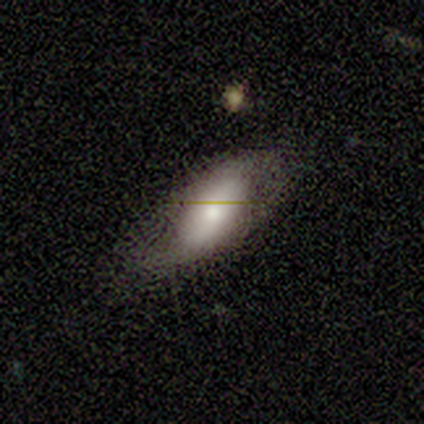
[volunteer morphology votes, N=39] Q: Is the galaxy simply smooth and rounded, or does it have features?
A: smooth — 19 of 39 (49%).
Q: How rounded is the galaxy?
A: in between — 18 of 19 (95%).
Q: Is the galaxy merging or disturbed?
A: none — 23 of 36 (64%).